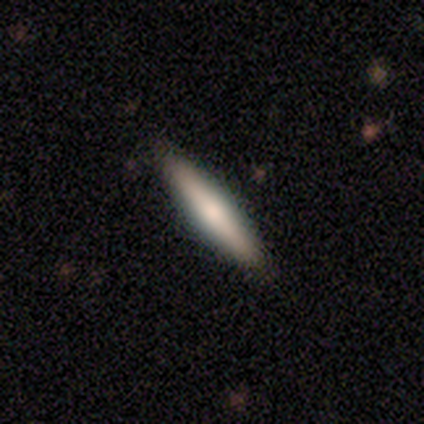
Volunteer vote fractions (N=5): smooth_or_featured: smooth (p=0.60) [alt: featured or disk p=0.40]
how_rounded: cigar-shaped (p=1.00)
merging: none (p=1.00)